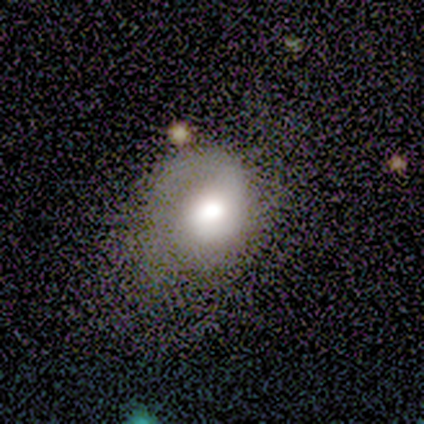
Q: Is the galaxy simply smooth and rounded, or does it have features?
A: featured or disk — 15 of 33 (45%).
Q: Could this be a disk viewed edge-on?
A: no — 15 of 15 (100%).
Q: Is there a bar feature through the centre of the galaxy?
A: no — 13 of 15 (87%).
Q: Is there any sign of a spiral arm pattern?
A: yes — 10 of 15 (67%).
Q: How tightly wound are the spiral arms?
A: medium — 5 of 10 (50%).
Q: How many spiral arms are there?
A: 1 — 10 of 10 (100%).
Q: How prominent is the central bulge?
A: large — 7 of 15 (47%).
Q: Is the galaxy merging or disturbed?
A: none — 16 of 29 (55%).